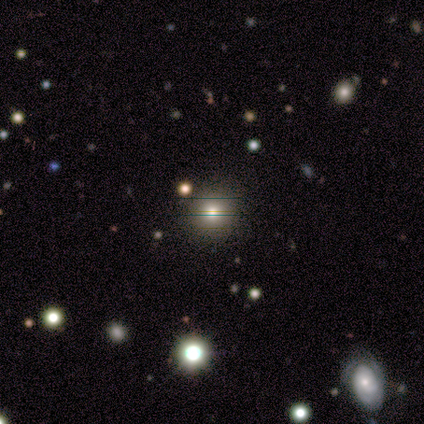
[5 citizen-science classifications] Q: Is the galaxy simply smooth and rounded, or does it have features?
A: smooth — 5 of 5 (100%).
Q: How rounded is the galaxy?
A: round — 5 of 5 (100%).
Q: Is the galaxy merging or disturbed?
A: none — 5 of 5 (100%).